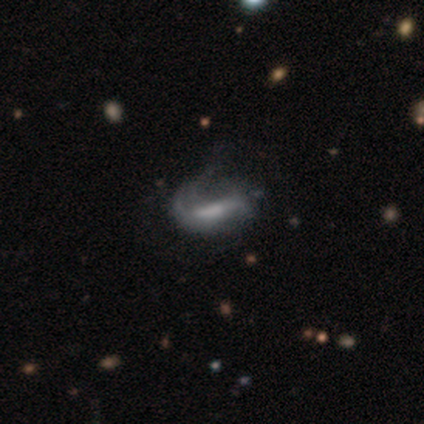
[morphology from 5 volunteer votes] Volunteers were most divided on "bulge size" (3-way tie): moderate: 33%, small: 33%, none: 33%, dominant: 0%, large: 0%; "merging" (2-way tie): minor disturbance: 40%, major disturbance: 40%, none: 20%, merger: 0%. More confident: edge-on disk — no (100%); spiral winding — loose (100%); spiral arm count — 2 (100%); bar — strong (67%); spiral arms — yes (67%); smooth or featured — featured or disk (60%).